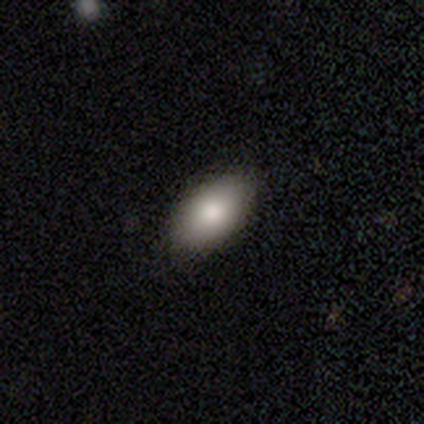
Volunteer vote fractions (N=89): A smooth galaxy with no disk features (85%) that is in between round and cigar-shaped (93%). Merging: none (81%).